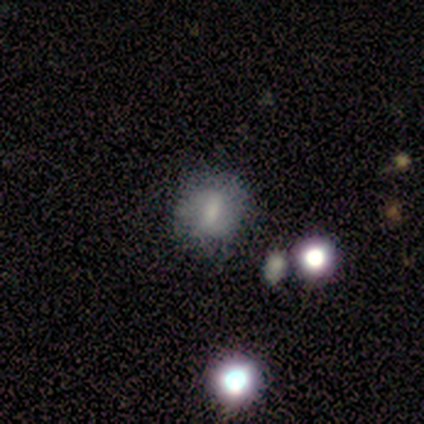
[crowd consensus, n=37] A smooth galaxy with no disk features (51%) that is round (53%).

Vote fractions:
- Smooth or featured? smooth: 51% / featured or disk: 46% / star or artifact: 3%
- How rounded? round: 53% / in between: 47% / cigar-shaped: 0%
- Merging? none: 67% / minor disturbance: 17% / major disturbance: 11% / merger: 6%